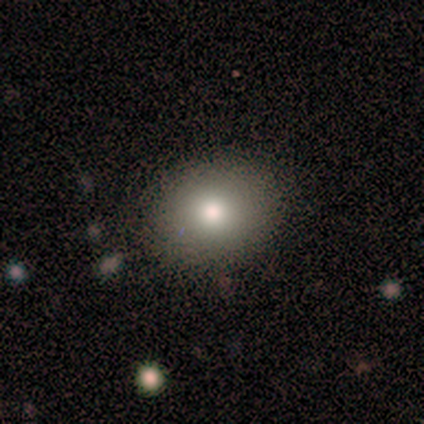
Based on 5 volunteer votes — Morphology: type=smooth (80%); roundness=round (100%); merging=none (60%).